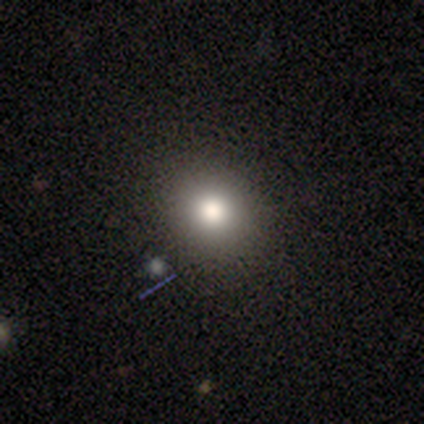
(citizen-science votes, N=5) Smooth or featured: smooth — 80% (featured or disk — 20%)
How rounded: round — 100%
Merging: none — 100%